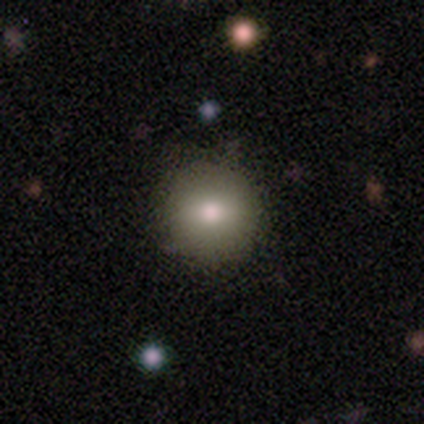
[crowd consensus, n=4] Morphology: type=smooth (75%); roundness=round (100%); merging=none (100%).